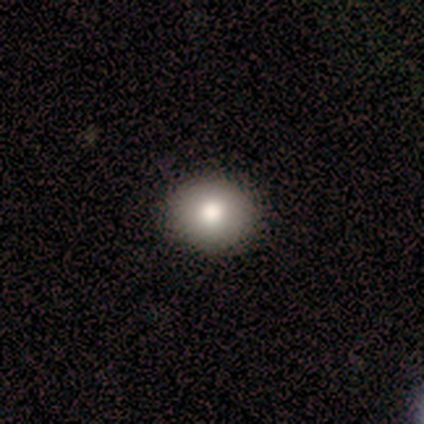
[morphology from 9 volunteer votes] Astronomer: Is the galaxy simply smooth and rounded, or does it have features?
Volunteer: smooth — 89%.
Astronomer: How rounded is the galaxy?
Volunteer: round — 75%.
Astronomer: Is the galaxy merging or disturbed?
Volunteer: none — 100%.